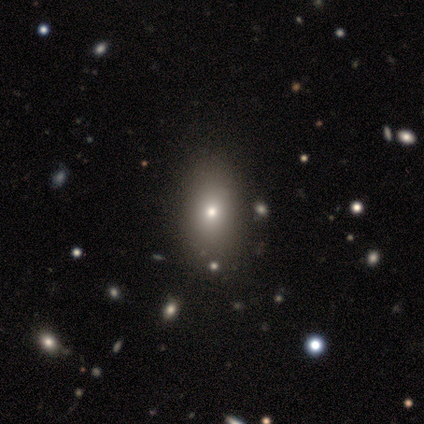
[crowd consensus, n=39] smooth_or_featured: smooth (p=0.77) [alt: featured or disk p=0.15]
how_rounded: in between (p=0.83) [alt: round p=0.13]
merging: none (p=0.72) [alt: minor disturbance p=0.06]